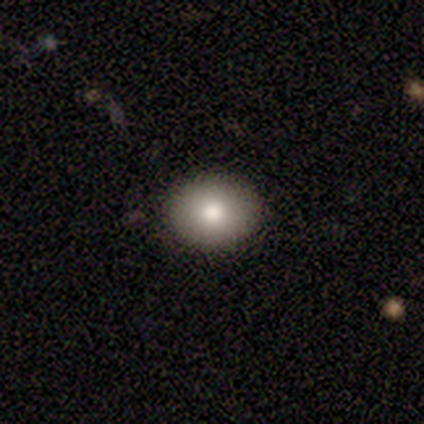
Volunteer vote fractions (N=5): This is clearly a smooth galaxy (80%). How rounded: possibly round (50%, tied with in between). Merging: clearly none (100%).